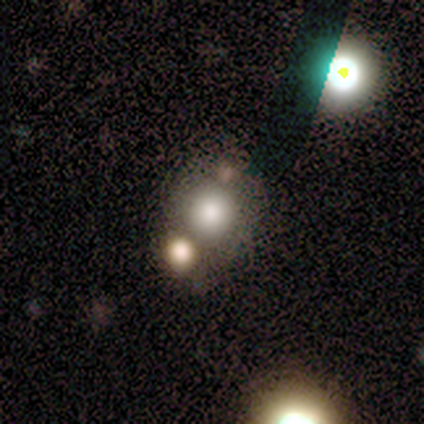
Smooth or featured?
  - smooth: 100% *
  - featured or disk: 0%
  - star or artifact: 0%
How rounded?
  - round: 60% *
  - in between: 40%
  - cigar-shaped: 0%
Merging?
  - none: 80% *
  - minor disturbance: 20%
  - major disturbance: 0%
  - merger: 0%